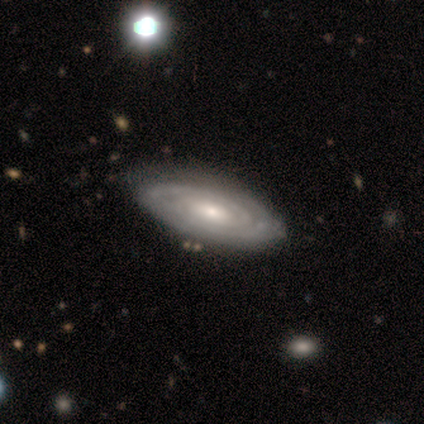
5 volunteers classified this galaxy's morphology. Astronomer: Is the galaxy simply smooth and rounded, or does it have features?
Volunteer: featured or disk — 80%.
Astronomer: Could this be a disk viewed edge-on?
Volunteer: no — 100%.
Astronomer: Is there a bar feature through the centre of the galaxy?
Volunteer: weak — 50%, tied with no at 50%.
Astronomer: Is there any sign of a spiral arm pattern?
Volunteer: yes — 100%.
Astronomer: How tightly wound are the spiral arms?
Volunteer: tight — 100%.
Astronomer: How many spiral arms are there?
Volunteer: can't tell — 50%.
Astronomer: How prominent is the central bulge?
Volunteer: moderate — 75%.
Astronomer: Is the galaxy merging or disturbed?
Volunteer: none — 75%.